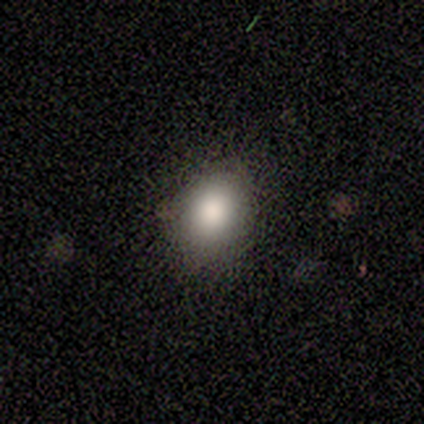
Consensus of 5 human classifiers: Morphology: type=smooth (80%); roundness=round (50%, tied with in between); merging=none (100%).